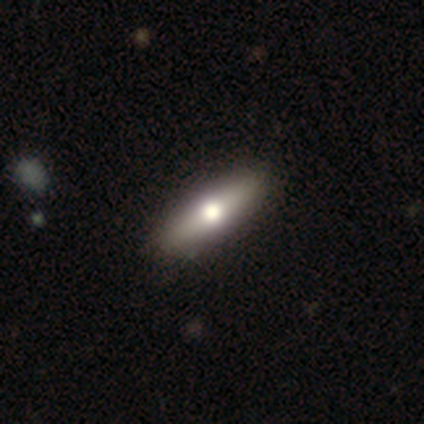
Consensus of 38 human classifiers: Smooth or featured? 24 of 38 (63%) said smooth. How rounded? 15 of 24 (62%) said cigar-shaped. Merging? 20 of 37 (54%) said none.